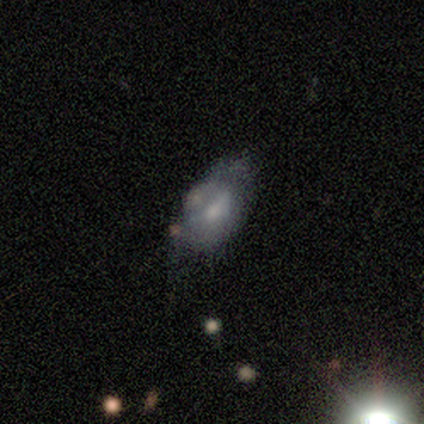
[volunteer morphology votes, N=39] Overall: smooth (54%; featured or disk 44%). How rounded: in between (90%). Merging: none (39%, tied with minor disturbance).